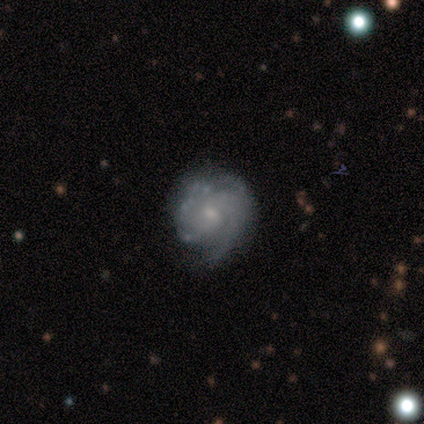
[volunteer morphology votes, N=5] This appears to be a featured or disk galaxy (100%) with a weak bar (60%), 2 (40%) medium (60%) spiral arms (100%) and a small central bulge (60%). Merging: none (60%).